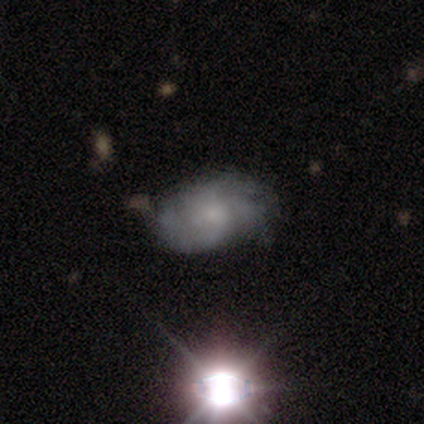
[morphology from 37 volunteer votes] smooth_or_featured: featured or disk (p=0.54) [alt: smooth p=0.30]
disk_edge_on: no (p=1.00)
bar: no (p=0.85) [alt: weak p=0.15]
has_spiral_arms: yes (p=0.90) [alt: no p=0.10]
spiral_winding: tight (p=0.67) [alt: medium p=0.22]
spiral_arm_count: 4 (p=0.44) [alt: 3 p=0.33]
bulge_size: small (p=0.65) [alt: moderate p=0.15]
merging: none (p=0.65) [alt: minor disturbance p=0.26]